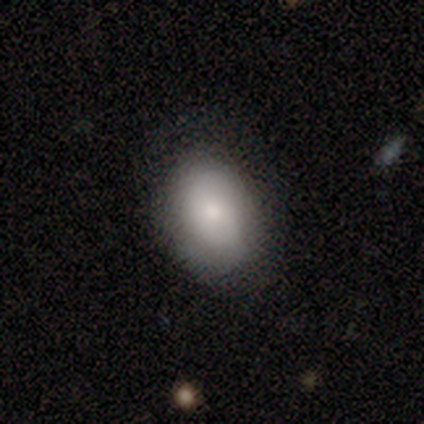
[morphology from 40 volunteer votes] A smooth galaxy with no disk features (85%) that is in between round and cigar-shaped (76%).

Vote fractions:
- Smooth or featured? smooth: 85% / star or artifact: 10% / featured or disk: 5%
- How rounded? in between: 76% / round: 24% / cigar-shaped: 0%
- Merging? none: 75% / minor disturbance: 17% / major disturbance: 8% / merger: 0%